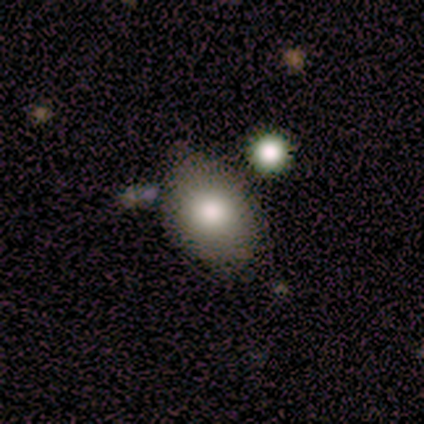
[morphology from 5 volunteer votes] Smooth or featured?
  - smooth: 80% *
  - featured or disk: 20%
  - star or artifact: 0%
How rounded?
  - in between: 75% *
  - round: 25%
  - cigar-shaped: 0%
Merging?
  - none: 40% * (tied)
  - minor disturbance: 40% * (tied)
  - major disturbance: 20%
  - merger: 0%